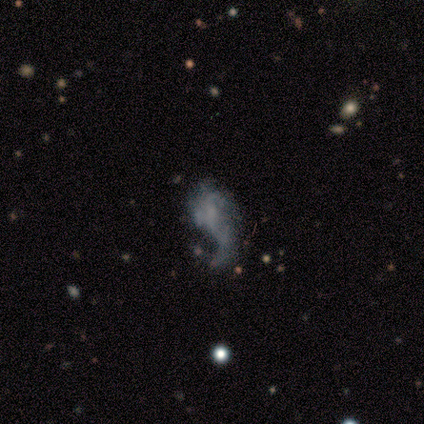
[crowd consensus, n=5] This appears to be a featured or disk galaxy (60%) with no bar (100%), 1 (100%) loose (100%) spiral arms (100%) and no central bulge (67%). Merging: none (40%, tied with major disturbance).